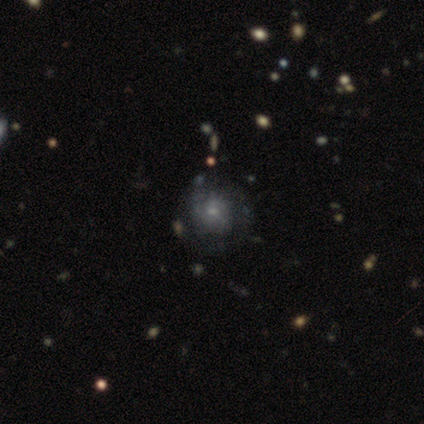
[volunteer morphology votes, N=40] Q: Smooth or featured?
A: featured or disk (50%); runner-up: smooth (35%)
Q: Edge-on disk?
A: no (100%)
Q: Bar?
A: no (60%); runner-up: weak (35%)
Q: Spiral arms?
A: yes (75%); runner-up: no (25%)
Q: Spiral winding?
A: tight (53%); runner-up: medium (47%)
Q: Spiral arm count?
A: can't tell (60%); runner-up: 2 (20%)
Q: Bulge size?
A: small (65%); runner-up: moderate (25%)
Q: Merging?
A: none (65%); runner-up: minor disturbance (29%)